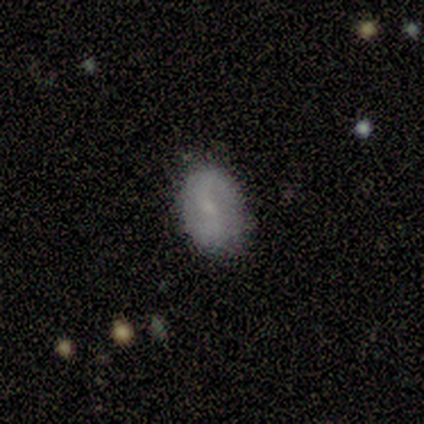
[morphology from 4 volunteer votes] This appears to be a smooth galaxy with no disk features (100%) that is round (75%). Merging: none (75%).